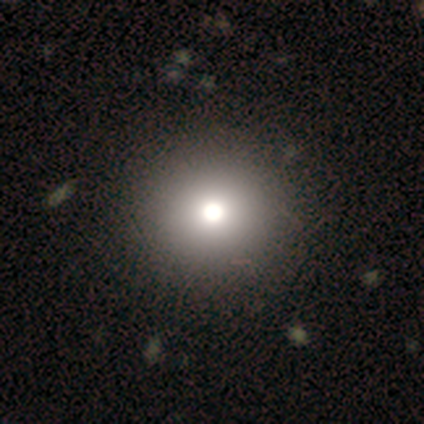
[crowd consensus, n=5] Smooth or featured? smooth (80%)
How rounded? round (75%)
Merging? none (100%)